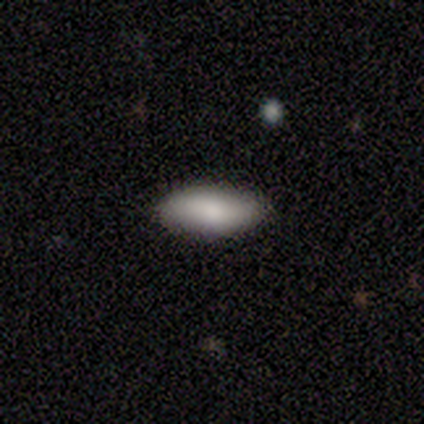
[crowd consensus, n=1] smooth_or_featured: smooth (p=1.00)
how_rounded: in between (p=1.00)
merging: none (p=1.00)